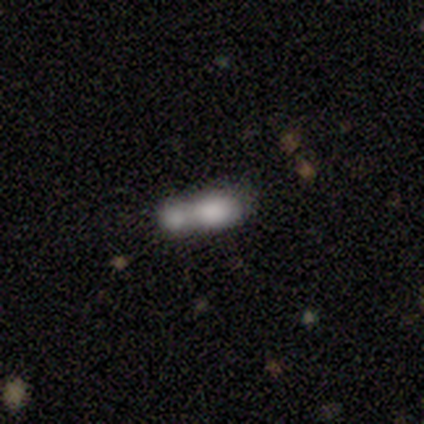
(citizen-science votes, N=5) Morphology: type=smooth (60%); roundness=in between (67%); merging=merger (75%).